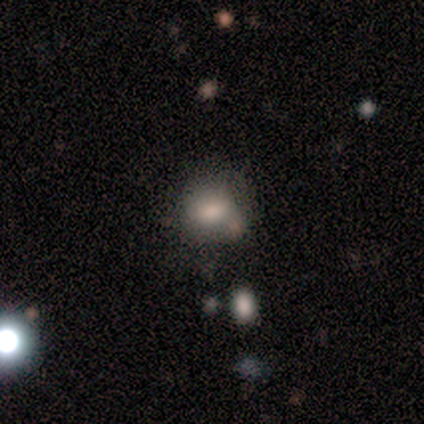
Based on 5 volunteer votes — Smooth or featured? 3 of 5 (60%) said smooth. How rounded? 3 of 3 (100%) said round. Merging? 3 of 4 (75%) said none.